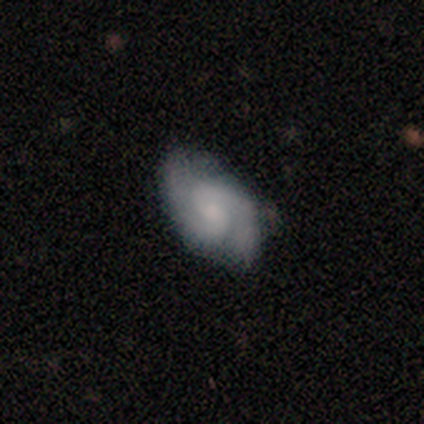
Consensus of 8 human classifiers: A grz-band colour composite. It shows a featured or disk galaxy (88%) with no bar (57%), 2 (86%) medium (86%) spiral arms (100%) and a small central bulge (71%). Merging: none (75%).